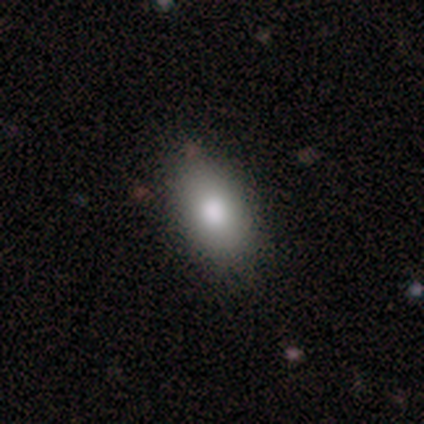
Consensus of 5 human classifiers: Smooth or featured? 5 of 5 (100%) said smooth. How rounded? 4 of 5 (80%) said in between. Merging? 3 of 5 (60%) said none.